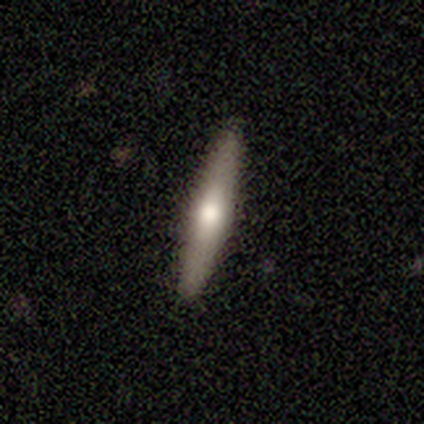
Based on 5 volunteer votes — A featured or disk galaxy (60%) viewed edge-on (100%) with a rounded central bulge (67%).

Vote fractions:
- Smooth or featured? featured or disk: 60% / smooth: 40% / star or artifact: 0%
- Edge-on disk? yes: 100% / no: 0%
- Edge-on bulge? rounded: 67% / boxy: 33% / none: 0%
- Merging? none: 100% / minor disturbance: 0% / major disturbance: 0% / merger: 0%